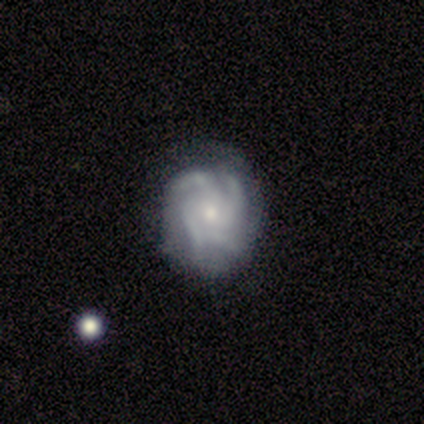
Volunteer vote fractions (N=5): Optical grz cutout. It shows a featured or disk galaxy (100%) with a strong bar (40%, tied with weak), 4 (75%) tight (75%) spiral arms (80%) and a small central bulge (100%). Merging: minor disturbance (60%).